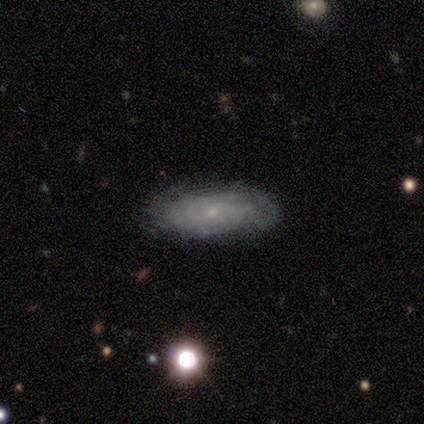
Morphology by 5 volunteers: Overall: smooth (60%; featured or disk 40%). How rounded: in between (67%; cigar-shaped 33%). Merging: none (80%).